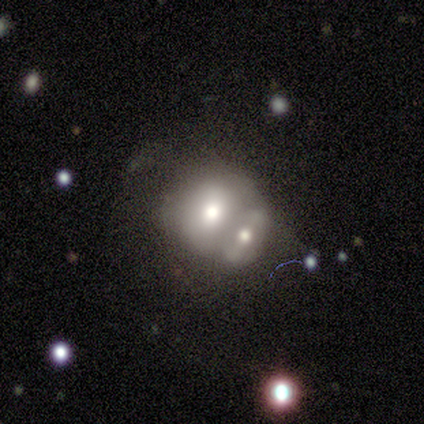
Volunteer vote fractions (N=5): smooth_or_featured: smooth (p=1.00)
how_rounded: in between (p=0.60) [alt: round p=0.40]
merging: merger (p=1.00)